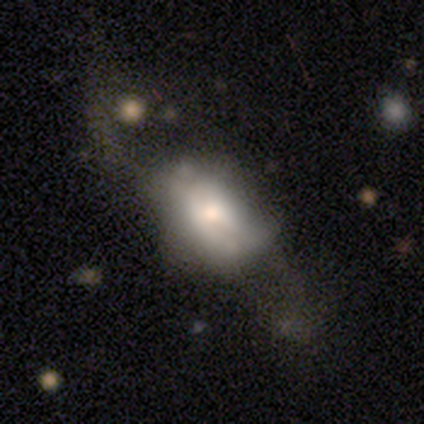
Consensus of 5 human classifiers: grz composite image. It shows a featured or disk galaxy (80%) with no bar (67%), 1 (50%, tied with can't tell) loose (100%) spiral arms (67%) and a small central bulge (67%). Merging: none (75%).